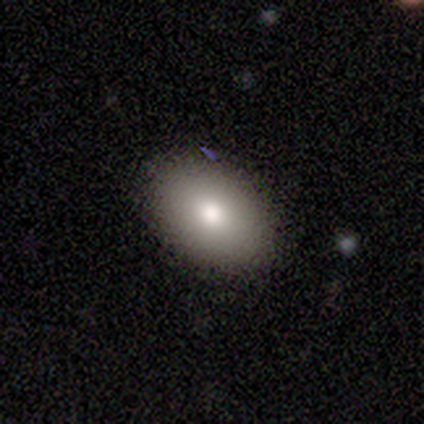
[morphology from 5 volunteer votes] Smooth or featured? smooth (60%)
How rounded? in between (67%)
Merging? none (100%)